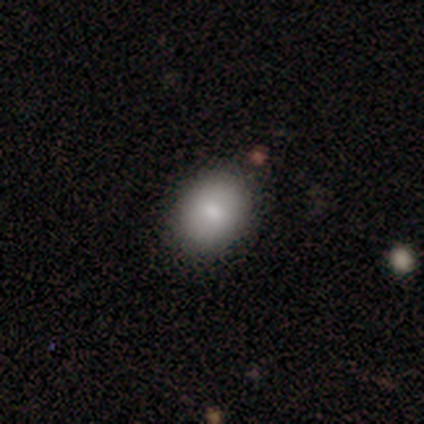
A smooth galaxy with no disk features (75%) that is round (67%). Merging: none (100%).